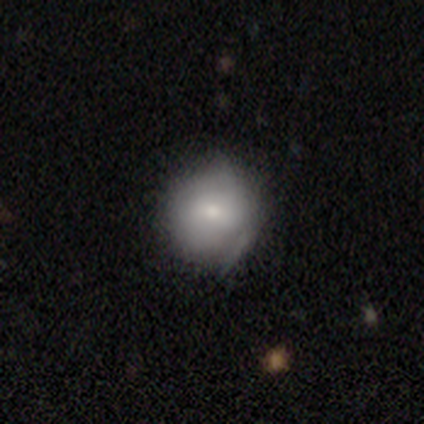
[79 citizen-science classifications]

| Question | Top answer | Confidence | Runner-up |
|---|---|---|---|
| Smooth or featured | smooth | 77% | featured or disk (19%) |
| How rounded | round | 89% | in between (10%) |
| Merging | none | 29% | minor disturbance (21%) |